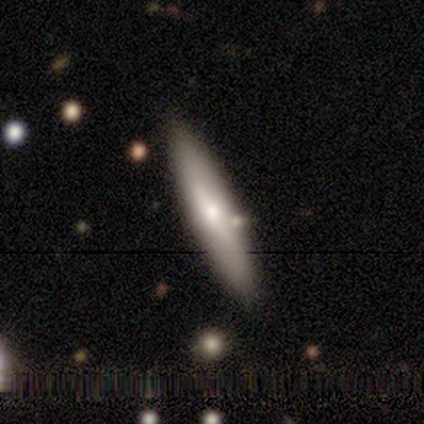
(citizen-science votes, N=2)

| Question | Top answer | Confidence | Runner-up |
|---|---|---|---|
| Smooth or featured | smooth | 100% | — |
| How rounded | in between | 50% | tied: cigar-shaped (50%) |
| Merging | none | 100% | — |